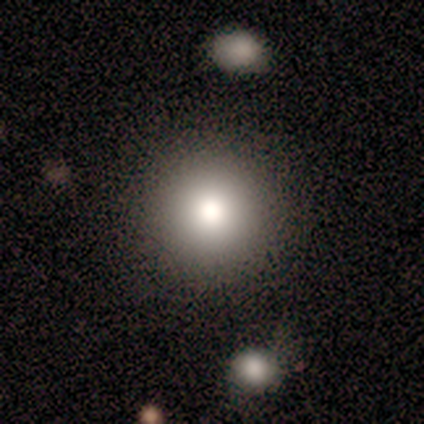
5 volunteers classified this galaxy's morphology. This is clearly a smooth galaxy (80%). How rounded: clearly round (100%). Merging: clearly none (80%).